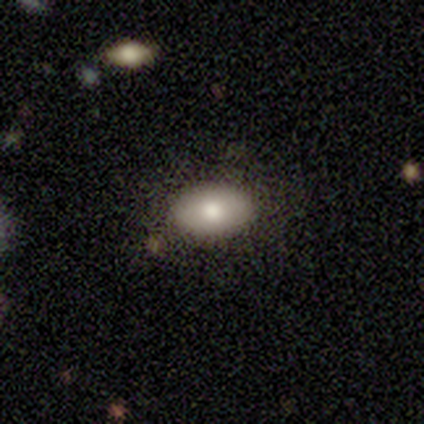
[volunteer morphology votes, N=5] Smooth or featured? smooth (100%)
How rounded? in between (80%)
Merging? none (100%)